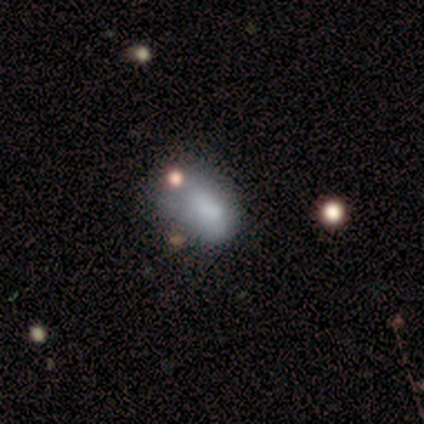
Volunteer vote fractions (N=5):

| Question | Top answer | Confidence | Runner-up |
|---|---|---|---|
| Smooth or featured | smooth | 80% | star or artifact (20%) |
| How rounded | in between | 75% | cigar-shaped (25%) |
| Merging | none | 50% | minor disturbance (25%) |